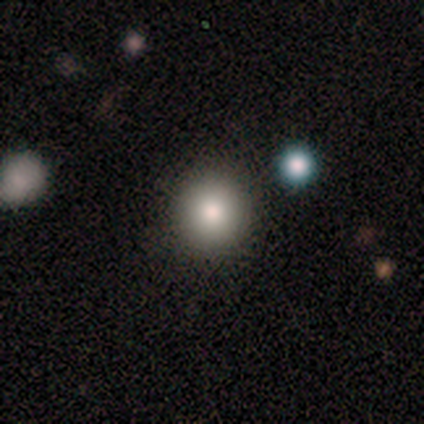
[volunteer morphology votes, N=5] Consensus on every question: smooth or featured — smooth (100%); how rounded — round (100%); merging — none (100%).